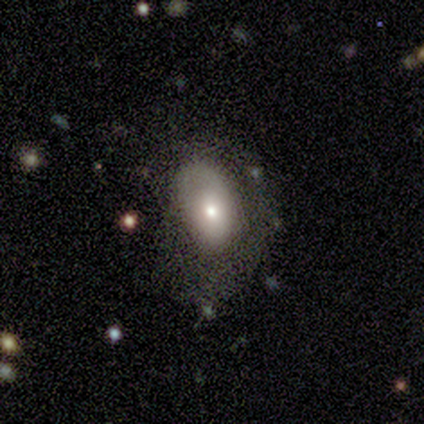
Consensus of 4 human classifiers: smooth_or_featured: smooth (p=0.75) [alt: star or artifact p=0.25]
how_rounded: in between (p=0.67) [alt: round p=0.33]
merging: none (p=0.33) [tied with: minor disturbance p=0.33, major disturbance p=0.33]